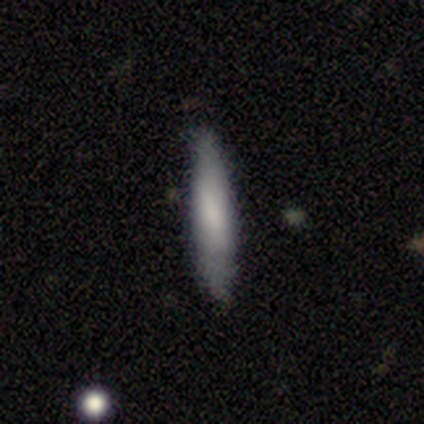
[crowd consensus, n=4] Volunteers were most divided on "merging": minor disturbance: 50%, none: 25%, merger: 25%, major disturbance: 0%. More confident: smooth or featured — smooth (75%); how rounded — cigar-shaped (67%).